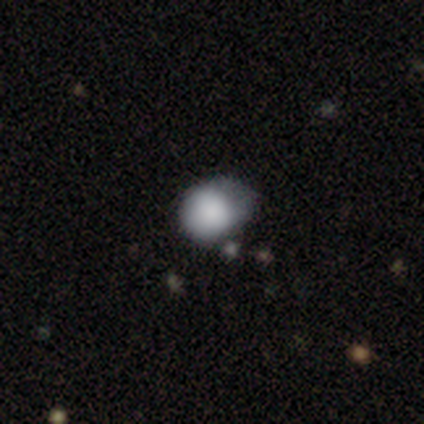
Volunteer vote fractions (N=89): Overall: smooth (83%). How rounded: round (70%). Merging: minor disturbance (50%; none 32%).